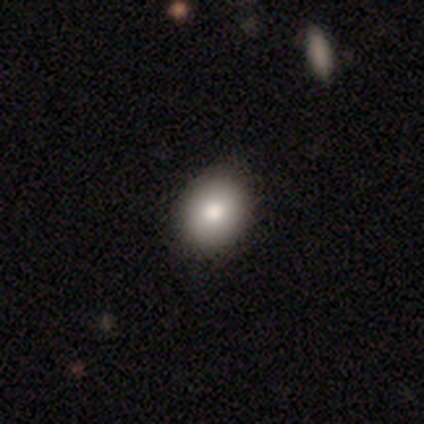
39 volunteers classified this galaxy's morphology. This appears to be a smooth galaxy with no disk features (87%) that is round (62%). Merging: none (53%).